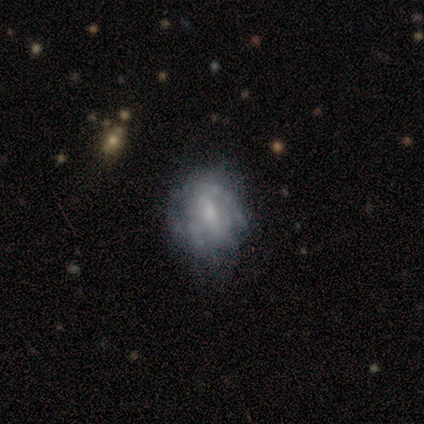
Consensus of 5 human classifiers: Overall: featured or disk (60%; smooth 40%). Edge-on disk: no (100%). Bar: no (67%; weak 33%). Spiral arms: yes (67%; no 33%). Spiral arm count: can't tell (100%). Spiral winding: tight (50%, tied with loose). Bulge size: small (67%; none 33%). Merging: none (60%; minor disturbance 20%).